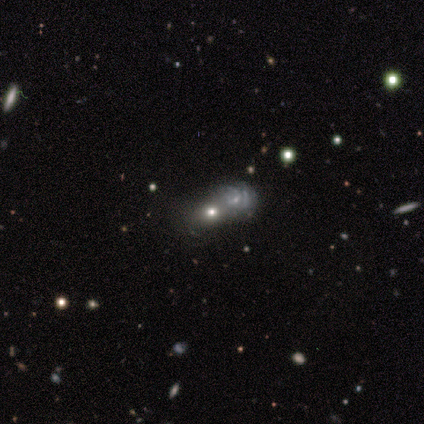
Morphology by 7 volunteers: A smooth galaxy with no disk features (71%) that is round (60%). Merging: merger (80%).